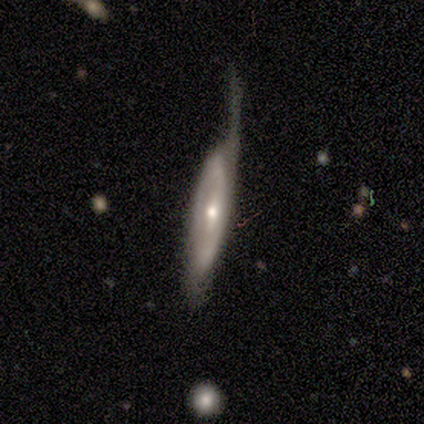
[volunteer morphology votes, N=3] Volunteers were most divided on "edge-on disk" (2-way tie): yes: 50%, no: 50%. More confident: edge-on bulge — rounded (100%); merging — major disturbance (100%); smooth or featured — featured or disk (67%).